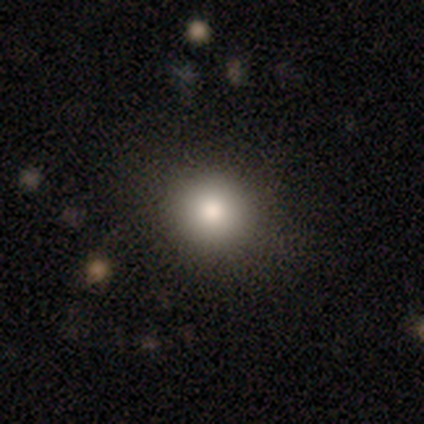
Q: Smooth or featured?
A: smooth (100%)
Q: How rounded?
A: round (86%); runner-up: in between (14%)
Q: Merging?
A: none (71%); runner-up: minor disturbance (14%)